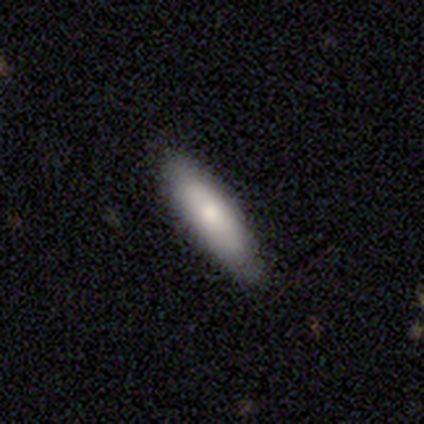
Morphology: type=smooth (77%); roundness=cigar-shaped (60%); merging=none (84%).